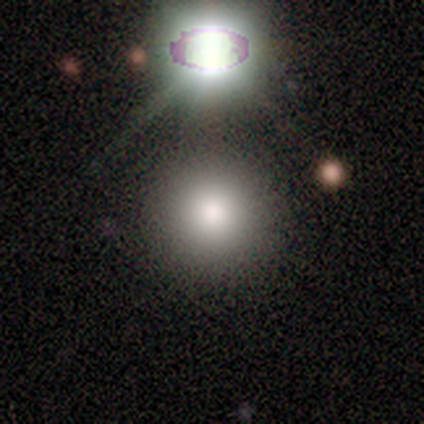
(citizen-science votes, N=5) A smooth galaxy with no disk features (80%) that is round (100%).

Vote fractions:
- Smooth or featured? smooth: 80% / star or artifact: 20% / featured or disk: 0%
- How rounded? round: 100% / in between: 0% / cigar-shaped: 0%
- Merging? none: 100% / minor disturbance: 0% / major disturbance: 0% / merger: 0%